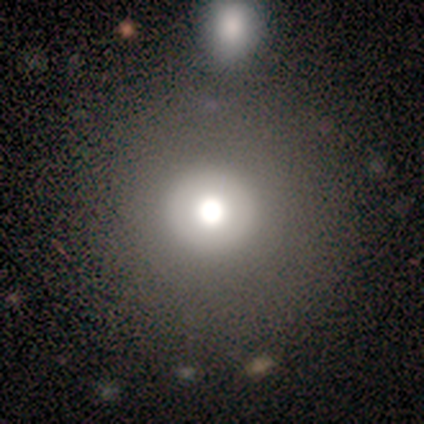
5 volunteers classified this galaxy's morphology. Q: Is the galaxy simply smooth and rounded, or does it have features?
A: smooth — 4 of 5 (80%).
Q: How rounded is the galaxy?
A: round — 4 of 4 (100%).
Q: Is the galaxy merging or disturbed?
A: none — 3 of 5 (60%).